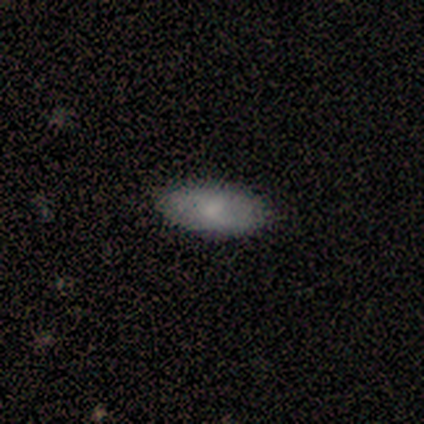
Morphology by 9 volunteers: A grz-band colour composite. It shows a smooth galaxy with no disk features (78%) that is in between round and cigar-shaped (100%). Merging: none (89%).